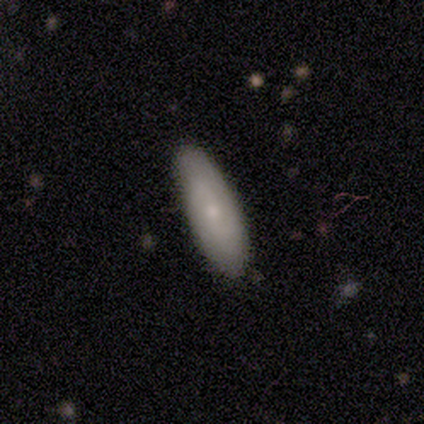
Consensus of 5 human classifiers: smooth_or_featured: smooth (p=0.60) [alt: featured or disk p=0.40]
how_rounded: in between (p=0.67) [alt: cigar-shaped p=0.33]
merging: none (p=0.80) [alt: minor disturbance p=0.20]